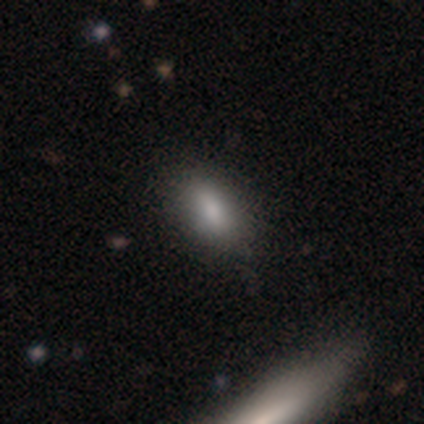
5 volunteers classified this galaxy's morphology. A smooth galaxy with no disk features (80%) that is in between round and cigar-shaped (100%).

Vote fractions:
- Smooth or featured? smooth: 80% / featured or disk: 20% / star or artifact: 0%
- How rounded? in between: 100% / round: 0% / cigar-shaped: 0%
- Merging? none: 80% / minor disturbance: 20% / major disturbance: 0% / merger: 0%